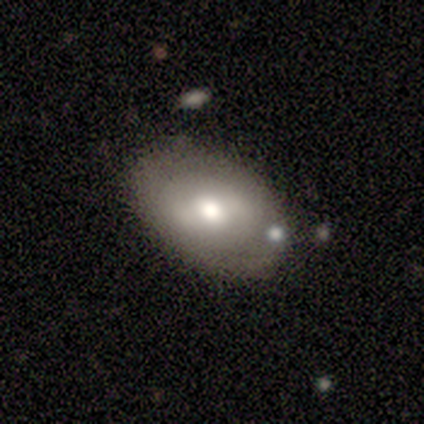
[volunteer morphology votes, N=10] smooth 60%, featured or disk 30%, star or artifact 10%. Down the decision tree: how rounded — in between (83%); merging — none (67%).